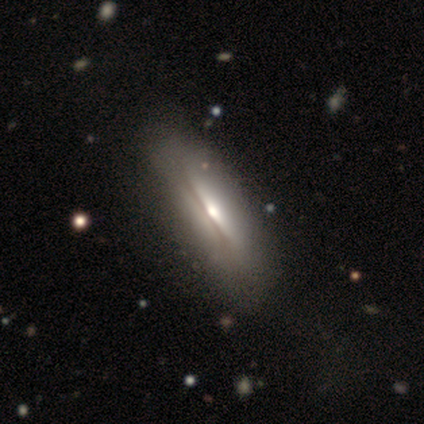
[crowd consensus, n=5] smooth_or_featured: featured or disk (p=1.00)
disk_edge_on: yes (p=1.00)
edge_on_bulge: rounded (p=0.80) [alt: boxy p=0.20]
merging: none (p=1.00)